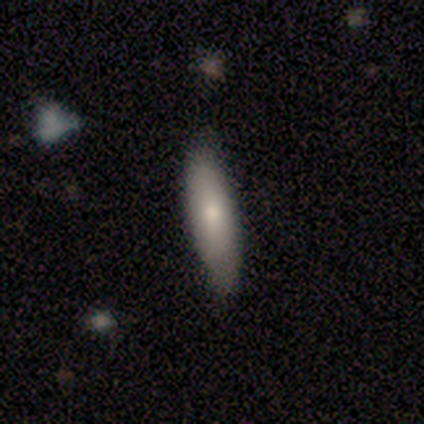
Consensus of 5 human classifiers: A smooth galaxy with no disk features (100%) that is cigar-shaped (60%). Merging: none (80%).